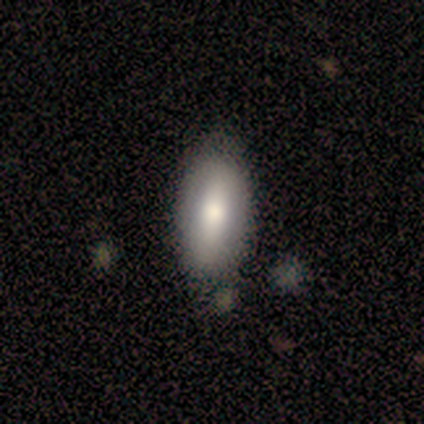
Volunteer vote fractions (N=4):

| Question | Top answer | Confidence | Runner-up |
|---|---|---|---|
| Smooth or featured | smooth | 75% | star or artifact (25%) |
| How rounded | in between | 100% | — |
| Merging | none | 100% | — |